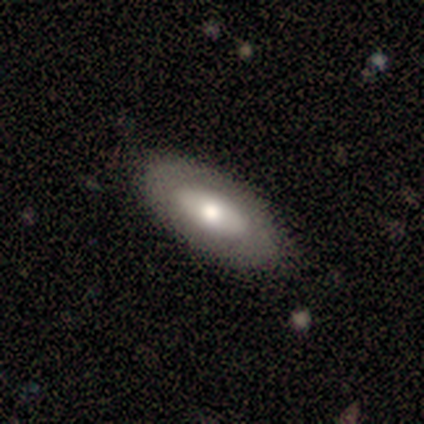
This is likely a smooth galaxy (62%). How rounded: clearly in between (80%). Merging: clearly none (88%).